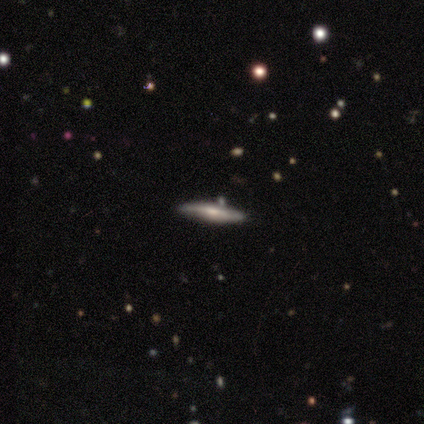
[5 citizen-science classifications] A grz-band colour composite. It shows a smooth galaxy with no disk features (80%) that is cigar-shaped (100%). Merging: none (80%).